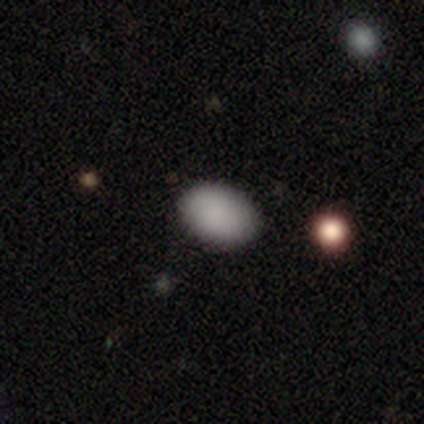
Overall: smooth (85%). How rounded: in between (85%). Merging: none (78%).